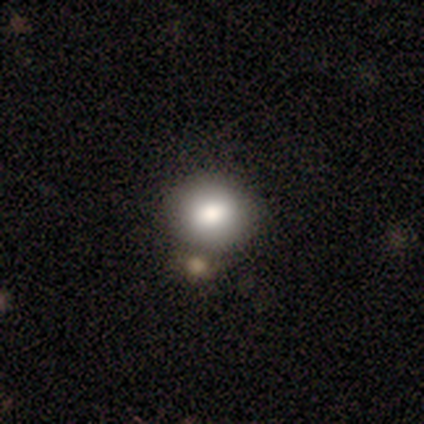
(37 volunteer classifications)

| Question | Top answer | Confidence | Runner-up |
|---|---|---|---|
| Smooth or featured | smooth | 86% | featured or disk (8%) |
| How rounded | round | 84% | in between (16%) |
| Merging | none | 66% | merger (26%) |